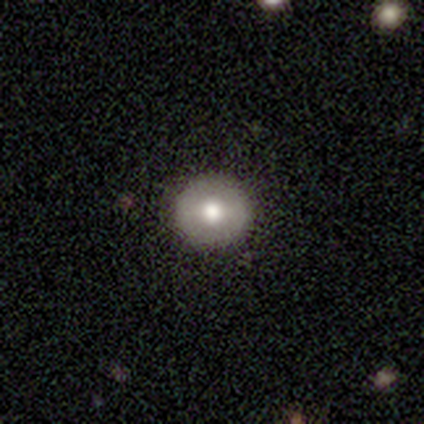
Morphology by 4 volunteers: A smooth galaxy with no disk features (75%) that is round (100%).

Vote fractions:
- Smooth or featured? smooth: 75% / featured or disk: 25% / star or artifact: 0%
- How rounded? round: 100% / in between: 0% / cigar-shaped: 0%
- Merging? none: 100% / minor disturbance: 0% / major disturbance: 0% / merger: 0%